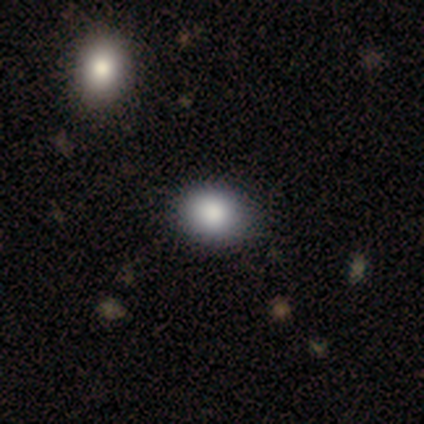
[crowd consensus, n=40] Volunteers were most divided on "how rounded": round: 52%, in between: 48%, cigar-shaped: 0%. More confident: merging — none (82%); smooth or featured — smooth (78%).